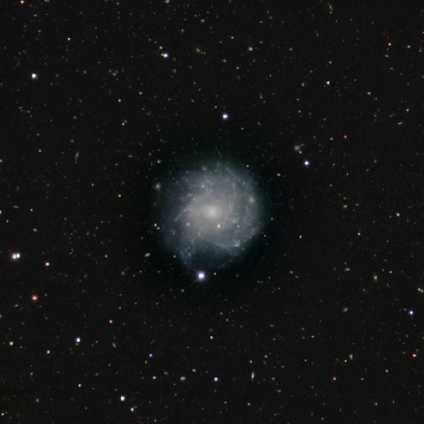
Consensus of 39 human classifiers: smooth_or_featured: featured or disk (p=0.92) [alt: smooth p=0.08]
disk_edge_on: no (p=0.97) [alt: yes p=0.03]
bar: no (p=0.69) [alt: weak p=0.29]
has_spiral_arms: yes (p=0.89) [alt: no p=0.11]
spiral_winding: tight (p=0.65) [alt: loose p=0.19]
spiral_arm_count: can't tell (p=0.58) [alt: more than 4 p=0.23]
bulge_size: small (p=0.80) [alt: moderate p=0.11]
merging: none (p=0.46) [alt: minor disturbance p=0.23]